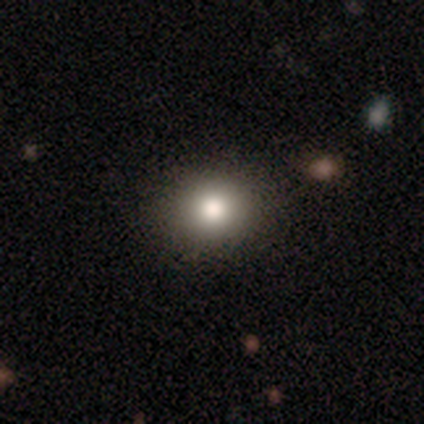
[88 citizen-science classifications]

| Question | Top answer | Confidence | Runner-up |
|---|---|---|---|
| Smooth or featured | smooth | 80% | star or artifact (15%) |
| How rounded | round | 69% | in between (31%) |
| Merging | none | 91% | minor disturbance (5%) |